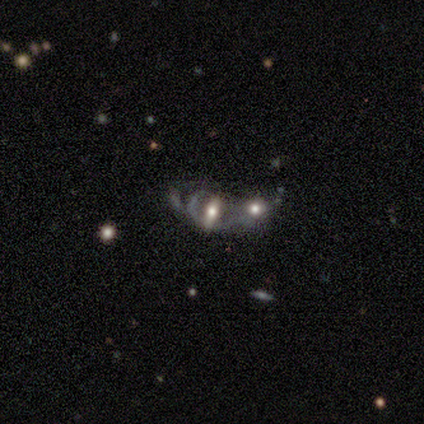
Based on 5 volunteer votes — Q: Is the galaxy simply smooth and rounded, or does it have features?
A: featured or disk — 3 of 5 (60%).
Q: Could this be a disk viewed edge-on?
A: no — 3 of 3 (100%).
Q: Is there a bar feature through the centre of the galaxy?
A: no — 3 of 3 (100%).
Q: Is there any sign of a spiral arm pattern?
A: no — 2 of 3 (67%).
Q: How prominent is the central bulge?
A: moderate — 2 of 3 (67%).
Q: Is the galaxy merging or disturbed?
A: merger — 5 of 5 (100%).